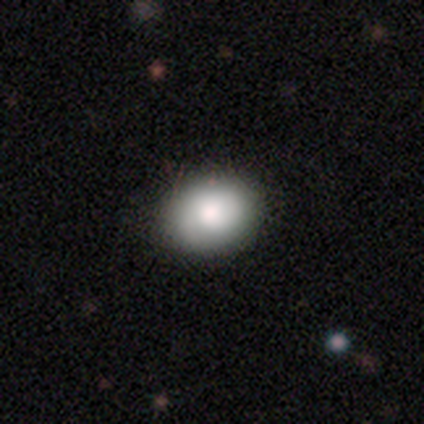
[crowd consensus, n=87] Smooth or featured? 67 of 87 (77%) said smooth. How rounded? 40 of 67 (60%) said in between. Merging? 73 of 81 (90%) said none.